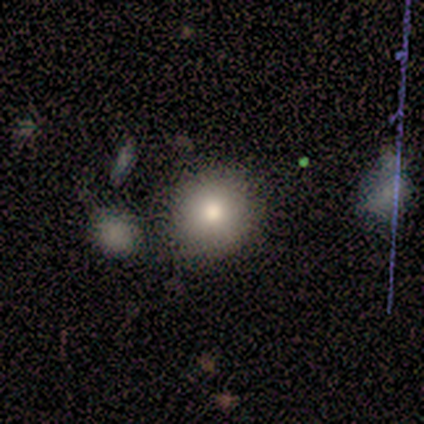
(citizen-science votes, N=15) Smooth or featured? smooth (47%)
How rounded? round (86%)
Merging? none (85%)